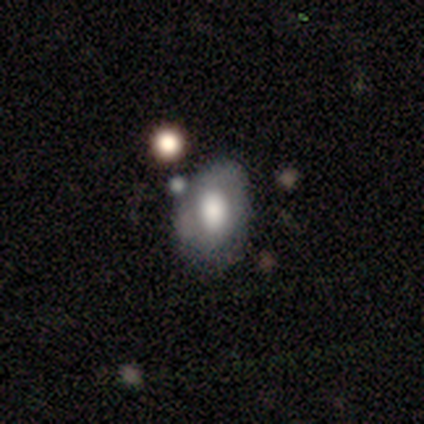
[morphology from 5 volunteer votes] Smooth or featured? 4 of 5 (80%) said smooth. How rounded? 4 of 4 (100%) said in between. Merging? 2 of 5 (40%, tied with minor disturbance) said none.